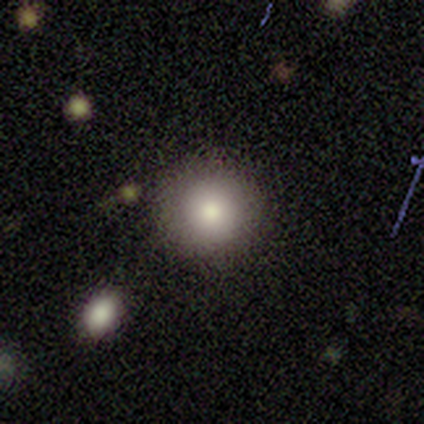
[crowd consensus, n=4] smooth-or-featured: smooth: 75% | featured or disk: 25% | star or artifact: 0%
  how-rounded: round: 100% | in between: 0% | cigar-shaped: 0%
  merging: none: 100% | minor disturbance: 0% | major disturbance: 0% | merger: 0%